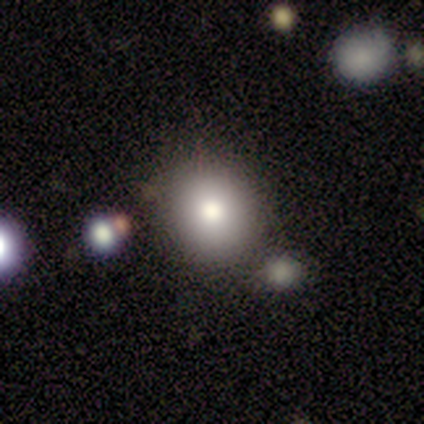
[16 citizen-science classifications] Q: Smooth or featured?
A: smooth (100%)
Q: How rounded?
A: round (94%); runner-up: in between (6%)
Q: Merging?
A: none (88%); runner-up: merger (12%)